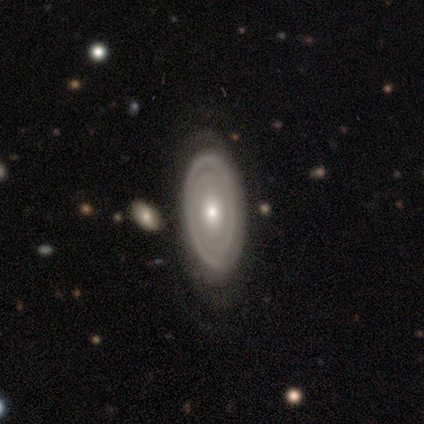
Smooth or featured?
  - featured or disk: 88% *
  - smooth: 12%
  - star or artifact: 0%
Edge-on disk?
  - no: 97% *
  - yes: 3%
Bar?
  - no: 85% *
  - weak: 15%
  - strong: 0%
Spiral arms?
  - yes: 68% *
  - no: 32%
Spiral winding?
  - tight: 78% *
  - medium: 17%
  - loose: 4%
Spiral arm count?
  - 2: 48% *
  - can't tell: 39%
  - 3: 9%
  - 1: 4%
  - 4: 0%
  - more than 4: 0%
Bulge size?
  - moderate: 56% *
  - small: 32%
  - large: 9%
  - dominant: 3%
  - none: 0%
Merging?
  - none: 72% *
  - minor disturbance: 18%
  - major disturbance: 8%
  - merger: 2%